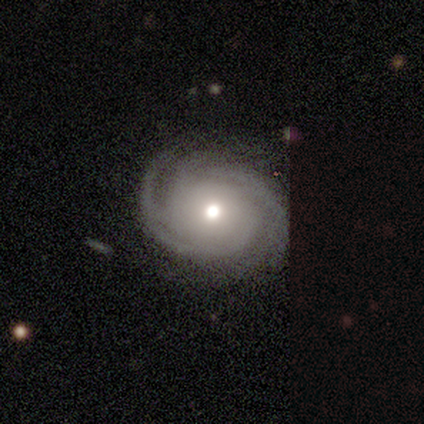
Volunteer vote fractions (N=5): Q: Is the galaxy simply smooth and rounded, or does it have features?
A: featured or disk — 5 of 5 (100%).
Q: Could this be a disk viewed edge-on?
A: no — 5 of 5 (100%).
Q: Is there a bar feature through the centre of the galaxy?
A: no — 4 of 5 (80%).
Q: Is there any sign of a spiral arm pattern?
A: yes — 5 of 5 (100%).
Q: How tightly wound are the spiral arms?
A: tight — 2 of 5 (40%, tied with medium).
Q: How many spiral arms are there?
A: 4 — 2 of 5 (40%).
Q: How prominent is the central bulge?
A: moderate — 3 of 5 (60%).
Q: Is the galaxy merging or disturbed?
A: none — 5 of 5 (100%).